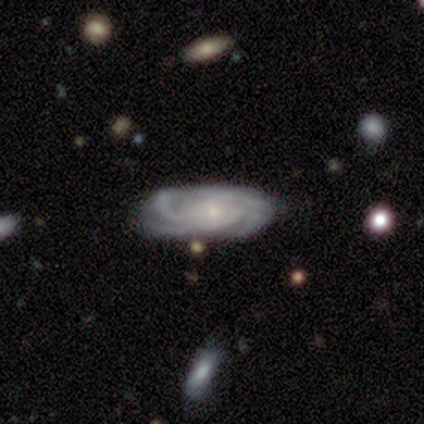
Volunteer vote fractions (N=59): A featured or disk galaxy (88%) with no bar (86%), 3 (52%) tight (77%) spiral arms (98%) and a small central bulge (57%). Merging: none (73%).